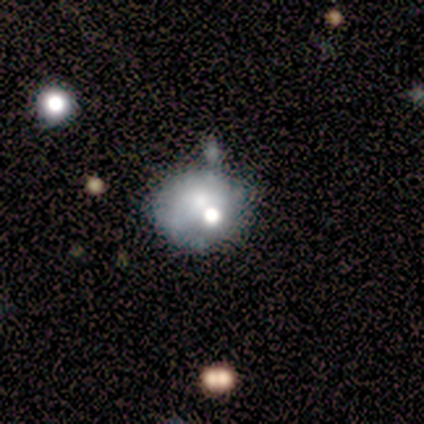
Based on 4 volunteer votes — Smooth or featured? 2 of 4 (50%, tied with featured or disk) said smooth. How rounded? 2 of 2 (100%) said round. Merging? 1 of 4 (25%, tied with minor disturbance, major disturbance and merger) said none.